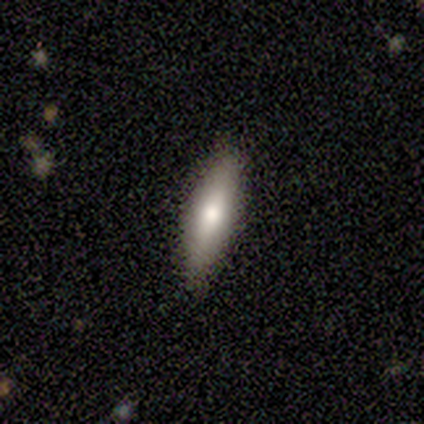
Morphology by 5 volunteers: Q: Smooth or featured?
A: smooth (60%); runner-up: featured or disk (20%)
Q: How rounded?
A: cigar-shaped (100%)
Q: Merging?
A: none (75%); runner-up: minor disturbance (25%)